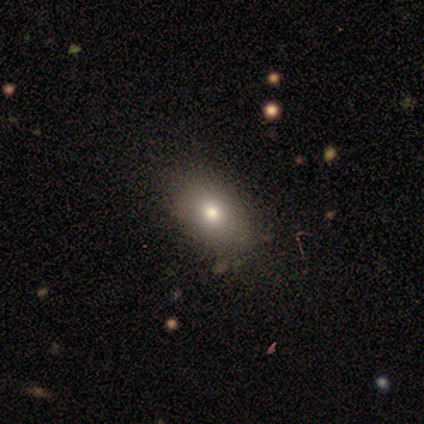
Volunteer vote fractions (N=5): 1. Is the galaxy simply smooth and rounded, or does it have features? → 40% smooth (tied), 40% featured or disk (tied), 20% star or artifact.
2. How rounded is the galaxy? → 100% in between, 0% round, 0% cigar-shaped.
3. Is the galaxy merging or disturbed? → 100% none, 0% minor disturbance, 0% major disturbance, 0% merger.